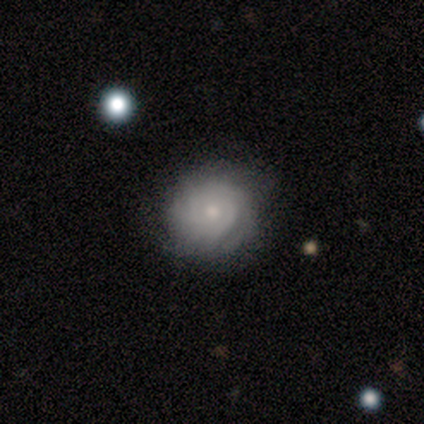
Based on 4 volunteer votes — featured or disk 75%, smooth 25%, star or artifact 0%. Down the decision tree: edge-on disk — no (100%); bar — no (67%); spiral arms — yes (100%); spiral arm count — can't tell (67%); spiral winding — tight (100%); bulge size — small (67%); merging — none (75%).